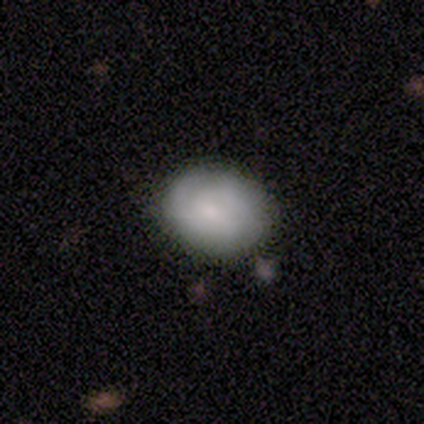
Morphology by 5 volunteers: Q: Smooth or featured?
A: smooth (60%); runner-up: featured or disk (20%)
Q: How rounded?
A: in between (100%)
Q: Merging?
A: minor disturbance (75%); runner-up: none (25%)